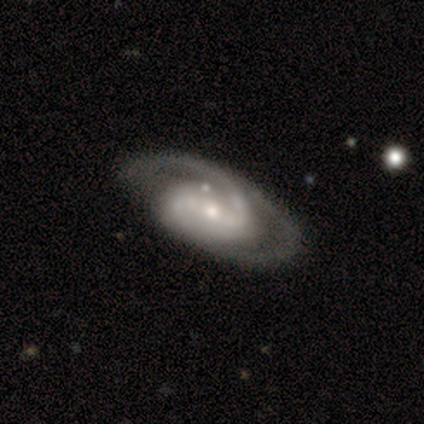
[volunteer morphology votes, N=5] smooth-or-featured: featured or disk: 80% | star or artifact: 20% | smooth: 0%
  disk-edge-on: no: 100% | yes: 0%
    bar: weak: 50% | strong: 25% | no: 25%
    has-spiral-arms: yes: 100% | no: 0%
      spiral-winding: tight: 50% (tied) | medium: 50% (tied) | loose: 0%
      spiral-arm-count: 2: 100% | 1: 0% | 3: 0% | 4: 0% | more than 4: 0% | can't tell: 0%
    bulge-size: small: 75% | moderate: 25% | dominant: 0% | large: 0% | none: 0%
  merging: none: 100% | minor disturbance: 0% | major disturbance: 0% | merger: 0%